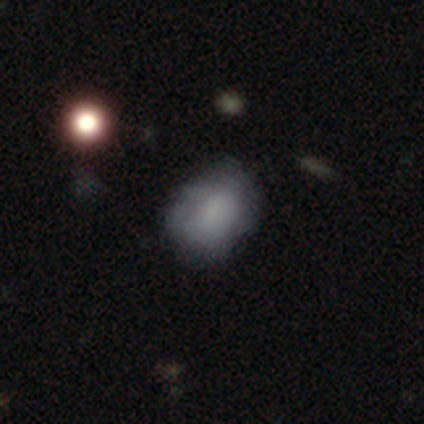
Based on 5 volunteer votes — Smooth or featured? 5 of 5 (100%) said smooth. How rounded? 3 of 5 (60%) said in between. Merging? 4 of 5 (80%) said none.